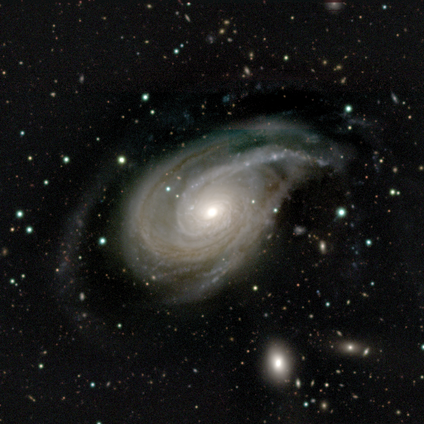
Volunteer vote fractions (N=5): featured or disk 100%, smooth 0%, star or artifact 0%. Down the decision tree: edge-on disk — no (100%); bar — no (100%); spiral arms — yes (100%); spiral arm count — 3 (60%); spiral winding — tight (40%, tied with medium); bulge size — moderate (80%); merging — major disturbance (100%).